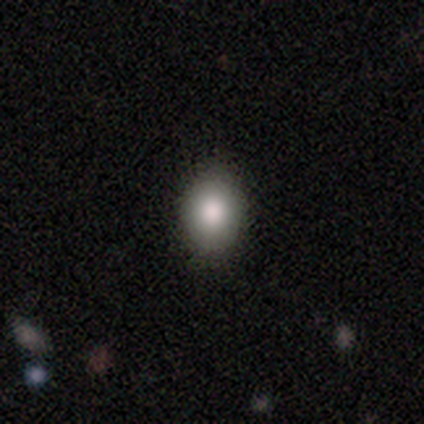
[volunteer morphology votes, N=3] Smooth or featured: smooth — 67% (star or artifact — 33%)
How rounded: in between — 100%
Merging: none — 100%